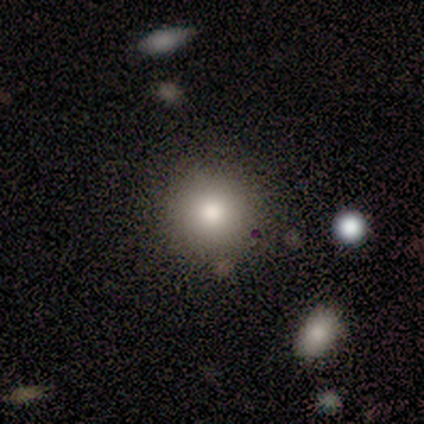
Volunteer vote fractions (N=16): A smooth galaxy with no disk features (81%) that is round (100%).

Vote fractions:
- Smooth or featured? smooth: 81% / star or artifact: 12% / featured or disk: 6%
- How rounded? round: 100% / in between: 0% / cigar-shaped: 0%
- Merging? none: 93% / minor disturbance: 7% / major disturbance: 0% / merger: 0%